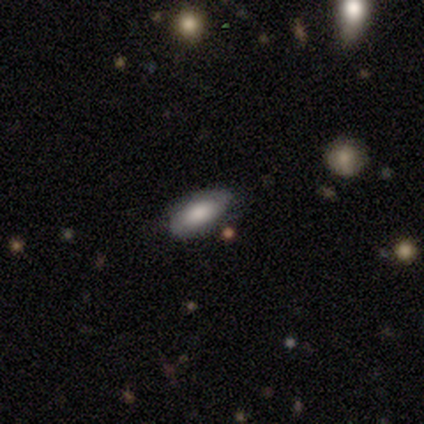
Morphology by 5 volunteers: Smooth or featured?
  - featured or disk: 60% *
  - smooth: 40%
  - star or artifact: 0%
Edge-on disk?
  - no: 67% *
  - yes: 33%
Bar?
  - weak: 50% * (tied)
  - no: 50% * (tied)
  - strong: 0%
Spiral arms?
  - yes: 100% *
  - no: 0%
Spiral winding?
  - tight: 100% *
  - medium: 0%
  - loose: 0%
Spiral arm count?
  - 2: 100% *
  - 1: 0%
  - 3: 0%
  - 4: 0%
  - more than 4: 0%
  - can't tell: 0%
Bulge size?
  - large: 50% * (tied)
  - moderate: 50% * (tied)
  - dominant: 0%
  - small: 0%
  - none: 0%
Merging?
  - none: 100% *
  - minor disturbance: 0%
  - major disturbance: 0%
  - merger: 0%